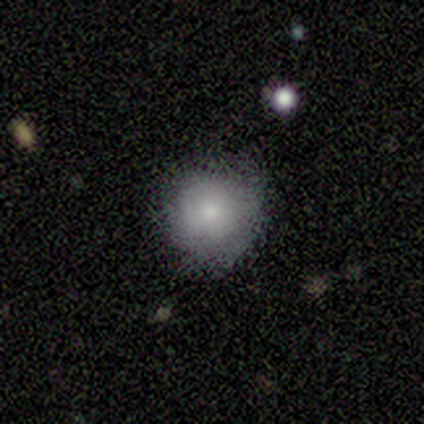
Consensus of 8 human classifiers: Morphology: type=smooth (62%); roundness=round (100%); merging=none (75%).